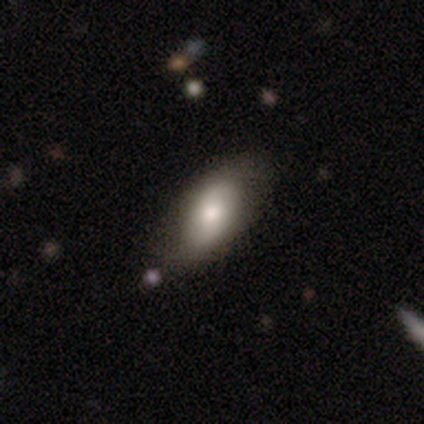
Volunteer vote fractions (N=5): This appears to be a smooth galaxy with no disk features (80%) that is in between round and cigar-shaped (100%). Merging: none (80%).